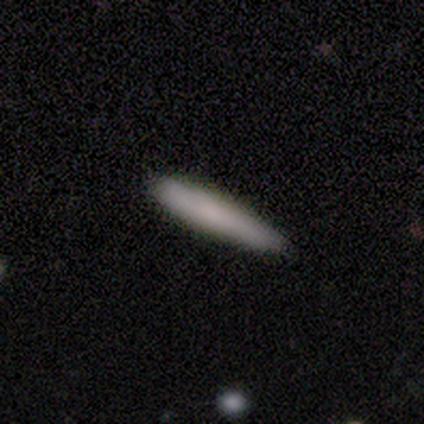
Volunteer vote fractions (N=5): This appears to be a smooth galaxy with no disk features (80%) that is cigar-shaped (100%). Merging: none (100%).